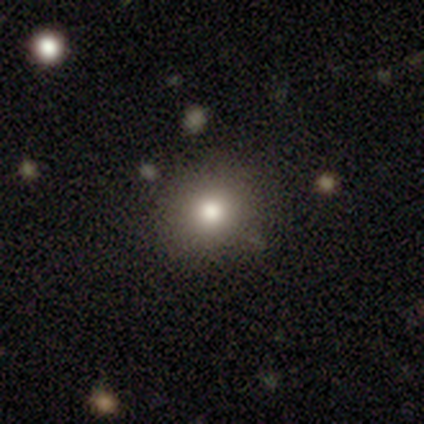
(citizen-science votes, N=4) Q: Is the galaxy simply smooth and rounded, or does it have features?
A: smooth — 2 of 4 (50%).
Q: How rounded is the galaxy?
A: round — 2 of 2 (100%).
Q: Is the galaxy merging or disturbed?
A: none — 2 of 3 (67%).